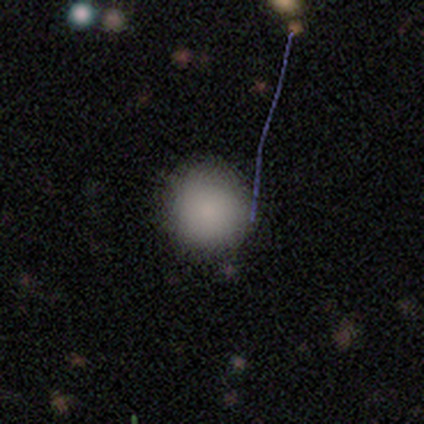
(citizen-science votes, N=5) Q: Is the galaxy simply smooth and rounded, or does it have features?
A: smooth — 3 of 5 (60%).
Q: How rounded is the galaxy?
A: round — 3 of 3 (100%).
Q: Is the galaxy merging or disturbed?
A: none — 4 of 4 (100%).